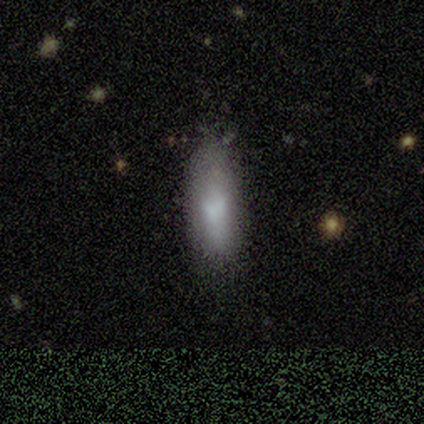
Morphology: type=smooth (80%); roundness=in between (100%); merging=none (50%, tied with minor disturbance).